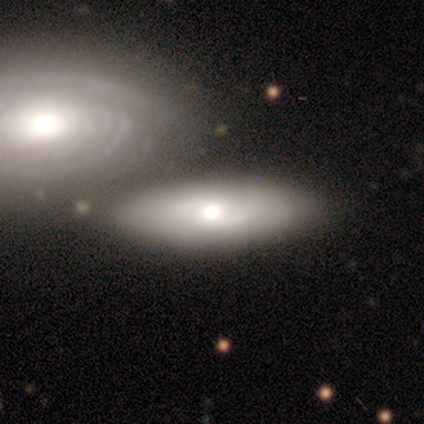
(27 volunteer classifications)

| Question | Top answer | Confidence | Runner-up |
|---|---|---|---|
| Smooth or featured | smooth | 74% | featured or disk (26%) |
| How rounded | in between | 70% | cigar-shaped (25%) |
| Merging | merger | 48% | none (7%) |